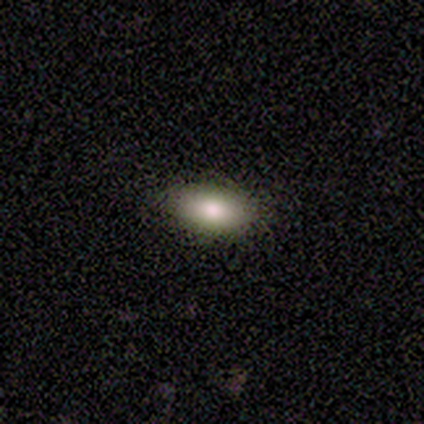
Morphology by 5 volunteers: type=smooth (80%); roundness=in between (100%); merging=none (100%).